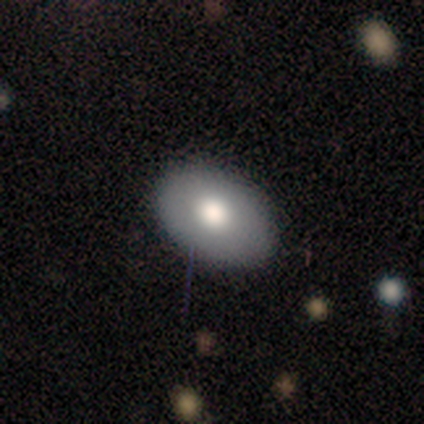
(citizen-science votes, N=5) Smooth or featured? 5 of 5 (100%) said smooth. How rounded? 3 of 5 (60%) said in between. Merging? 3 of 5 (60%) said none.